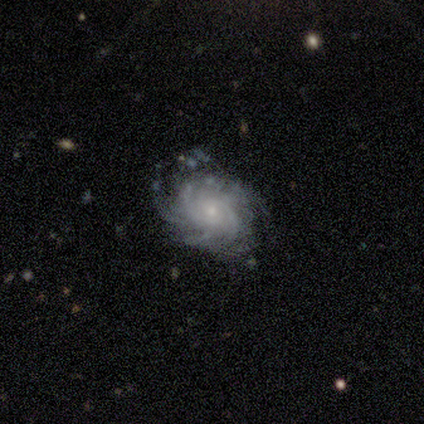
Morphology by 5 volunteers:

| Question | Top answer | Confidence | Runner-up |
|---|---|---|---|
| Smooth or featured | featured or disk | 100% | — |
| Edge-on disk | no | 100% | — |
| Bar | no | 80% | weak (20%) |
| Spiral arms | yes | 100% | — |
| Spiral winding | tight | 60% | medium (20%) |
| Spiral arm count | can't tell | 60% | 2 (20%) |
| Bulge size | small | 80% | moderate (20%) |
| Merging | none | 80% | minor disturbance (20%) |